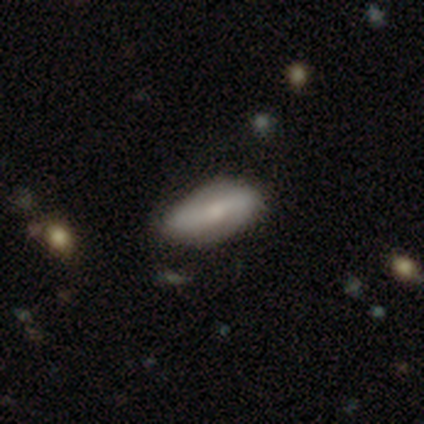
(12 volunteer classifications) Overall: featured or disk (58%; smooth 25%). Edge-on disk: no (86%). Bar: strong (33%, tied with weak and no). Spiral arms: yes (83%). Spiral arm count: 2 (80%). Spiral winding: loose (60%; tight 20%). Bulge size: small (67%). Merging: none (80%).